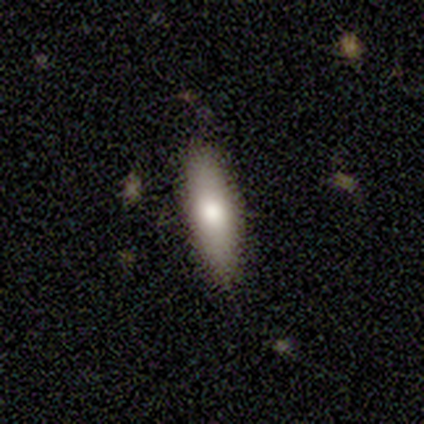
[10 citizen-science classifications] A smooth galaxy with no disk features (60%) that is in between round and cigar-shaped (50%, tied with cigar-shaped).

Vote fractions:
- Smooth or featured? smooth: 60% / featured or disk: 30% / star or artifact: 10%
- How rounded? in between: 50% (tied) / cigar-shaped: 50% (tied) / round: 0%
- Merging? none: 78% / minor disturbance: 22% / major disturbance: 0% / merger: 0%